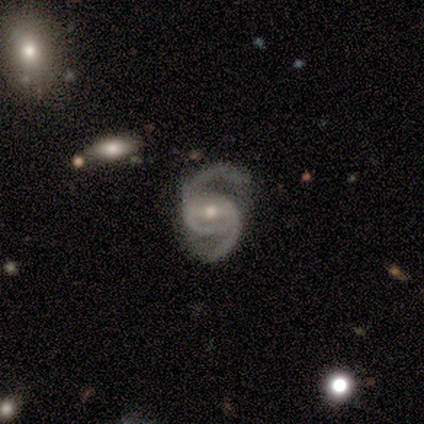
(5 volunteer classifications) Q: Smooth or featured?
A: featured or disk (80%); runner-up: star or artifact (20%)
Q: Edge-on disk?
A: no (100%)
Q: Bar?
A: strong (75%); runner-up: weak (25%)
Q: Spiral arms?
A: yes (100%)
Q: Spiral winding?
A: medium (50%); tied with: loose (50%)
Q: Spiral arm count?
A: 2 (100%)
Q: Bulge size?
A: moderate (100%)
Q: Merging?
A: none (100%)